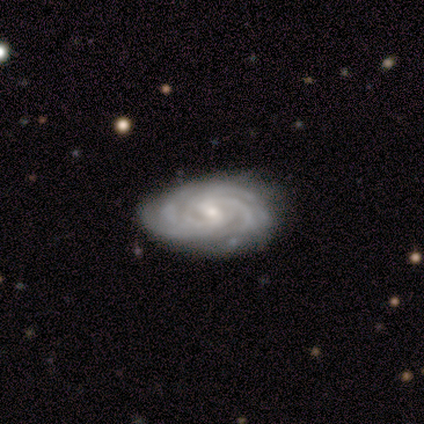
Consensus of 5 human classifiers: Smooth or featured? featured or disk (80%)
Edge-on disk? no (100%)
Bar? weak (100%)
Spiral arms? yes (100%)
Spiral winding? tight (100%)
Spiral arm count? 4 (50%)
Bulge size? small (75%)
Merging? none (75%)